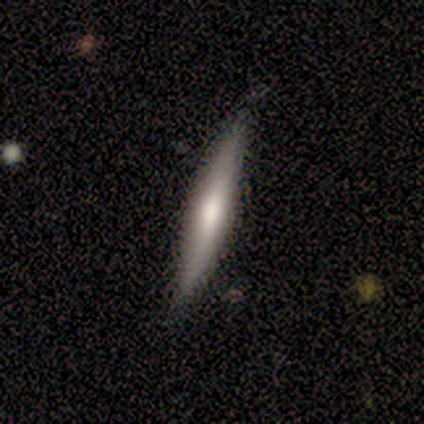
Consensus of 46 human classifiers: smooth_or_featured: featured or disk (p=0.57) [alt: smooth p=0.41]
disk_edge_on: yes (p=0.96) [alt: no p=0.04]
edge_on_bulge: rounded (p=0.68) [alt: none p=0.32]
merging: none (p=0.89) [alt: minor disturbance p=0.07]